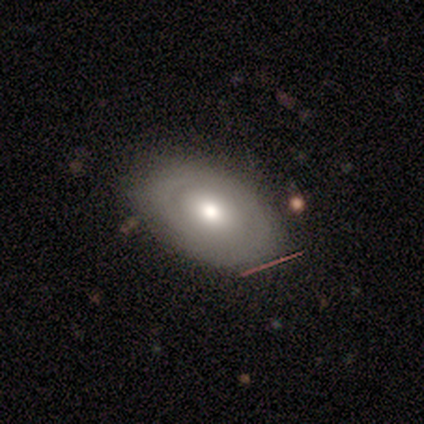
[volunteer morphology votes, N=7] smooth_or_featured: smooth (p=0.57) [alt: featured or disk p=0.43]
how_rounded: round (p=0.50) [tied with: in between p=0.50]
merging: none (p=1.00)